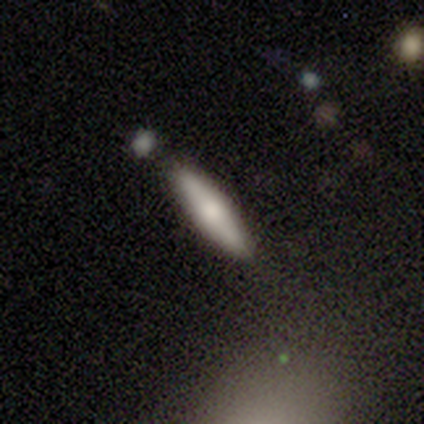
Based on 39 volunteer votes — Morphology: type=smooth (54%); roundness=cigar-shaped (81%); merging=none (63%).